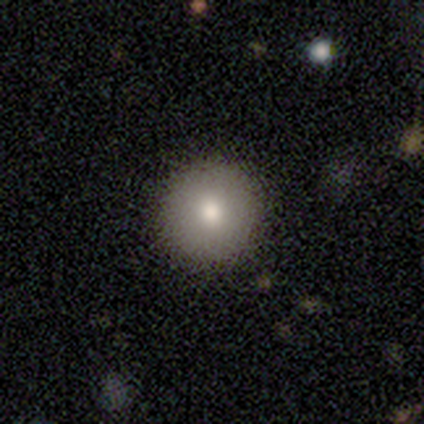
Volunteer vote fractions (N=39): smooth_or_featured: smooth (p=0.72) [alt: featured or disk p=0.15]
how_rounded: round (p=1.00)
merging: none (p=0.53) [alt: minor disturbance p=0.03]